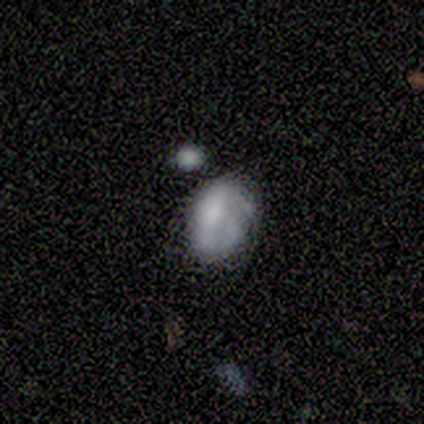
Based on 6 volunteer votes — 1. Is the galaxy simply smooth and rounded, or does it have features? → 50% smooth, 33% featured or disk, 17% star or artifact.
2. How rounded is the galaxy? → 100% in between, 0% round, 0% cigar-shaped.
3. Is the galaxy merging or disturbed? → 60% minor disturbance, 20% none, 20% major disturbance, 0% merger.